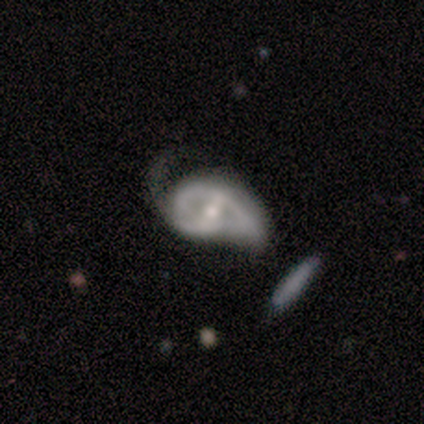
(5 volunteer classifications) Morphology: type=featured or disk (80%); edge-on=no (75%); bar=strong (33%, tied with weak and no); spiral arms=no (67%); bulge=moderate (67%); merging=major disturbance (60%).